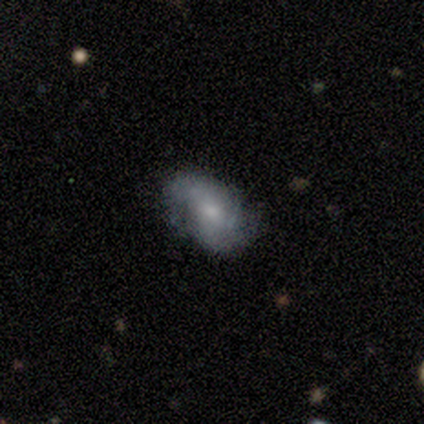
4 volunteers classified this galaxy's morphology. A smooth galaxy with no disk features (50%, tied with featured or disk) that is in between round and cigar-shaped (100%).

Vote fractions:
- Smooth or featured? smooth: 50% (tied) / featured or disk: 50% (tied) / star or artifact: 0%
- How rounded? in between: 100% / round: 0% / cigar-shaped: 0%
- Merging? none: 75% / major disturbance: 25% / minor disturbance: 0% / merger: 0%